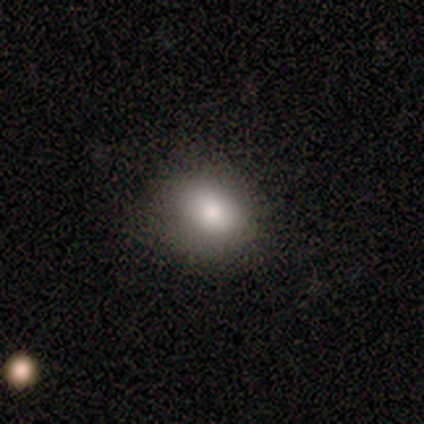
Smooth or featured?
  - smooth: 100% *
  - featured or disk: 0%
  - star or artifact: 0%
How rounded?
  - in between: 67% *
  - round: 33%
  - cigar-shaped: 0%
Merging?
  - none: 50% * (tied)
  - minor disturbance: 50% * (tied)
  - major disturbance: 0%
  - merger: 0%